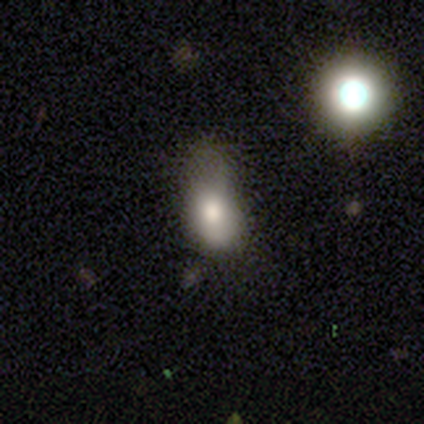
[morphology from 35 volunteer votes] Smooth or featured? smooth (83%)
How rounded? in between (69%)
Merging? minor disturbance (38%)